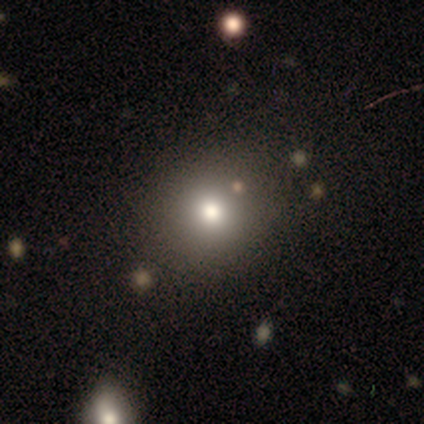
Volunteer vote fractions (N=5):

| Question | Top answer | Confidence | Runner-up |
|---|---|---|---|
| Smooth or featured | smooth | 80% | star or artifact (20%) |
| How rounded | round | 50% | tied: in between (50%) |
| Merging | none | 100% | — |